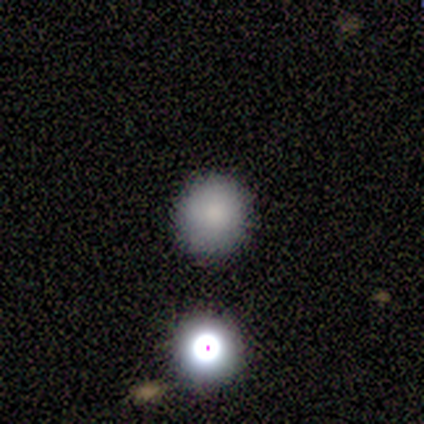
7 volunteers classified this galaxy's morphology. This is likely a smooth galaxy (71%). How rounded: clearly round (100%). Merging: clearly none (100%).